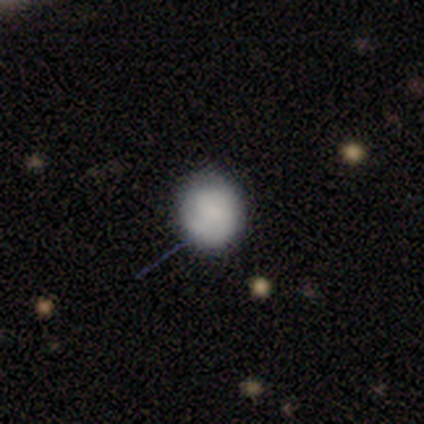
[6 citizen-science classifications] smooth_or_featured: smooth (p=0.67) [alt: featured or disk p=0.17]
how_rounded: round (p=1.00)
merging: none (p=0.80) [alt: minor disturbance p=0.20]